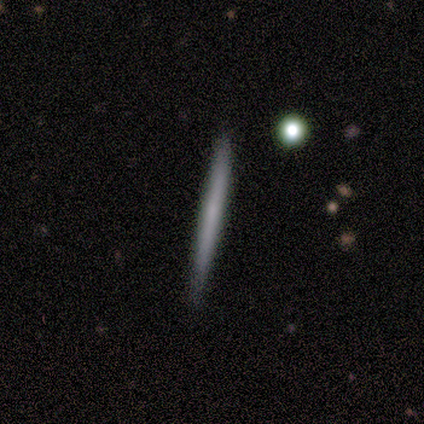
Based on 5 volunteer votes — Smooth or featured?
  - smooth: 80% *
  - featured or disk: 20%
  - star or artifact: 0%
How rounded?
  - cigar-shaped: 100% *
  - round: 0%
  - in between: 0%
Merging?
  - none: 100% *
  - minor disturbance: 0%
  - major disturbance: 0%
  - merger: 0%